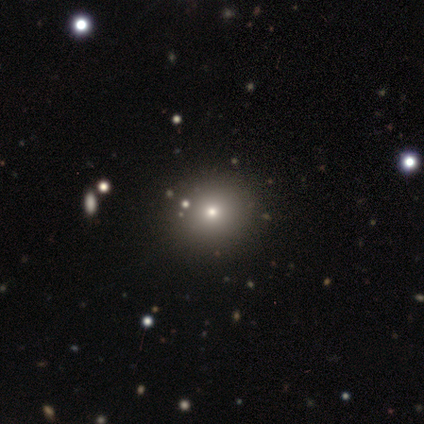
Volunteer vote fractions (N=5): Volunteers were most divided on "merging": none: 80%, minor disturbance: 20%, major disturbance: 0%, merger: 0%. More confident: smooth or featured — smooth (100%); how rounded — round (100%).